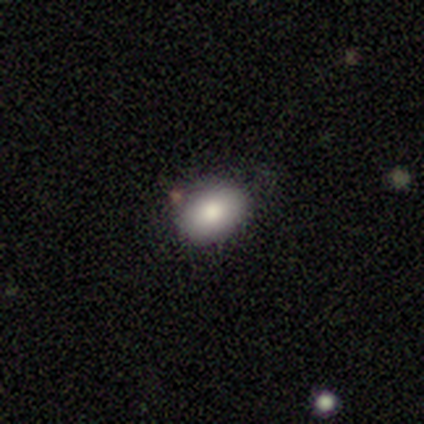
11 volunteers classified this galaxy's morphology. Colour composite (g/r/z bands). It shows a smooth galaxy with no disk features (91%) that is in between round and cigar-shaped (90%). Merging: none (70%).